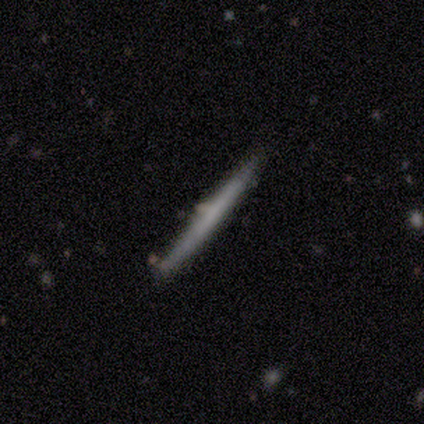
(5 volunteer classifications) Overall: featured or disk (60%; smooth 40%). Edge-on disk: yes (100%). Edge-on bulge: none (67%; rounded 33%). Merging: none (100%).